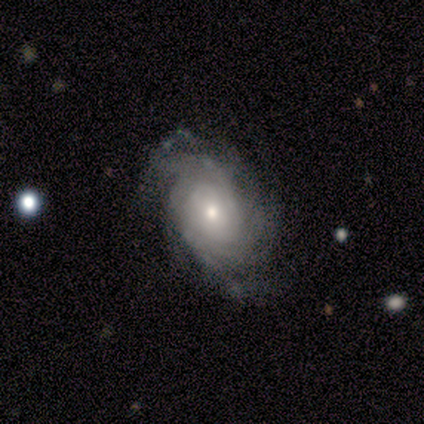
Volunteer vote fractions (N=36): featured or disk 72%, smooth 22%, star or artifact 6%. Down the decision tree: edge-on disk — no (96%); bar — no (80%); spiral arms — yes (80%); spiral arm count — can't tell (30%); spiral winding — tight (70%); bulge size — small (56%); merging — none (65%).